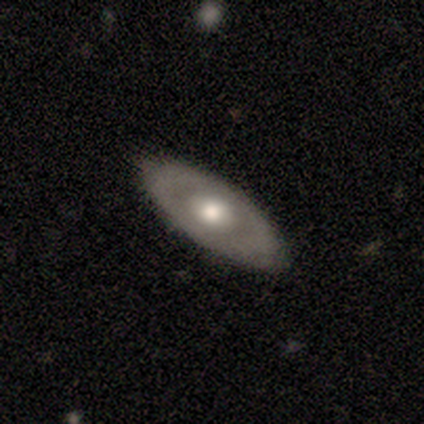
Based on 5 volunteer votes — featured or disk 60%, smooth 40%, star or artifact 0%. Down the decision tree: edge-on disk — no (67%); bar — weak (50%, tied with no); spiral arms — yes (50%, tied with no); spiral arm count — 2 (100%); spiral winding — tight (100%); bulge size — moderate (100%); merging — none (80%).